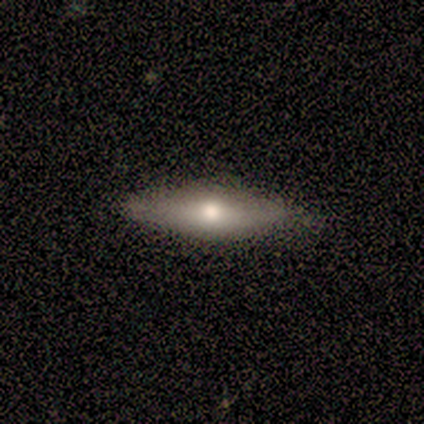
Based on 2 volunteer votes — A smooth galaxy with no disk features (100%) that is in between round and cigar-shaped (50%, tied with cigar-shaped). Merging: none (100%).